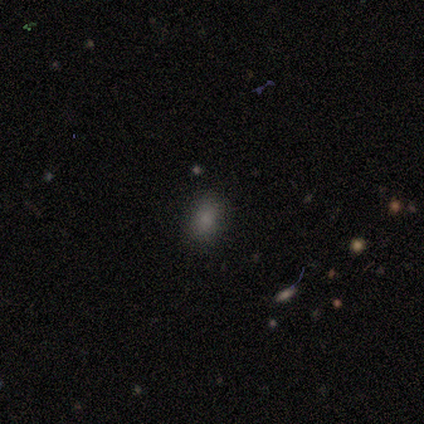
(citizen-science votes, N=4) Smooth or featured: smooth — 75% (featured or disk — 25%)
How rounded: in between — 67% (cigar-shaped — 33%)
Merging: none — 75% (minor disturbance — 25%)